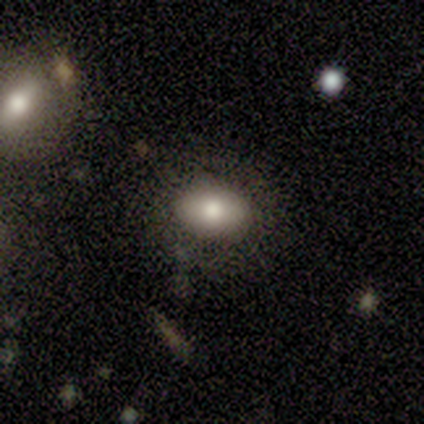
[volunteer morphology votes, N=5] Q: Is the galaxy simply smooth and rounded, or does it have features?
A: smooth — 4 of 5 (80%).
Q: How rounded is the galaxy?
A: in between — 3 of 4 (75%).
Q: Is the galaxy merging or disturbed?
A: none — 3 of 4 (75%).